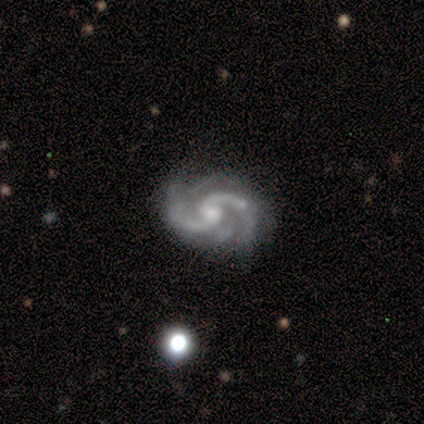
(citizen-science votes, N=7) Q: Smooth or featured?
A: featured or disk (100%)
Q: Edge-on disk?
A: no (100%)
Q: Bar?
A: no (86%); runner-up: weak (14%)
Q: Spiral arms?
A: yes (100%)
Q: Spiral winding?
A: loose (57%); runner-up: medium (43%)
Q: Spiral arm count?
A: 2 (86%); runner-up: 3 (14%)
Q: Bulge size?
A: moderate (71%); runner-up: small (29%)
Q: Merging?
A: none (86%); runner-up: minor disturbance (14%)